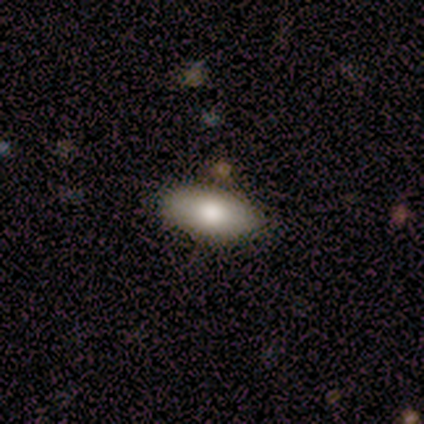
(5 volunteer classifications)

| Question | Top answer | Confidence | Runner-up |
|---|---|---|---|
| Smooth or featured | smooth | 100% | — |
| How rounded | in between | 80% | cigar-shaped (20%) |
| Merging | none | 40% | tied: minor disturbance (40%) |